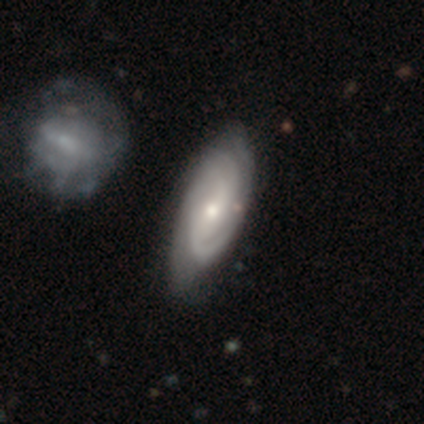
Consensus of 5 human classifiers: smooth-or-featured: featured or disk: 100% | smooth: 0% | star or artifact: 0%
  disk-edge-on: no: 100% | yes: 0%
    bar: weak: 100% | strong: 0% | no: 0%
    has-spiral-arms: yes: 100% | no: 0%
      spiral-winding: medium: 60% | tight: 40% | loose: 0%
      spiral-arm-count: 2: 60% | 1: 20% | can't tell: 20% | 3: 0% | 4: 0% | more than 4: 0%
    bulge-size: small: 60% | moderate: 40% | dominant: 0% | large: 0% | none: 0%
  merging: none: 80% | merger: 20% | minor disturbance: 0% | major disturbance: 0%